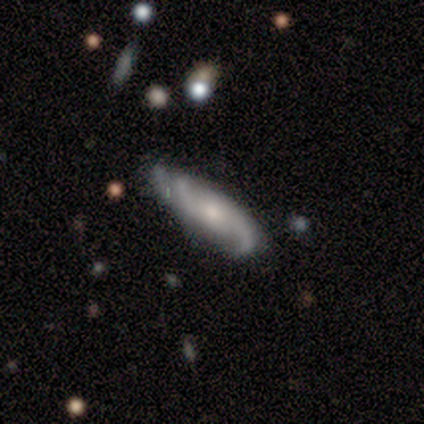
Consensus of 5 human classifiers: Smooth or featured? featured or disk (80%)
Edge-on disk? no (100%)
Bar? no (50%)
Spiral arms? yes (75%)
Spiral winding? medium (67%)
Spiral arm count? 2 (100%)
Bulge size? moderate (50%, tied with small)
Merging? none (50%, tied with minor disturbance)